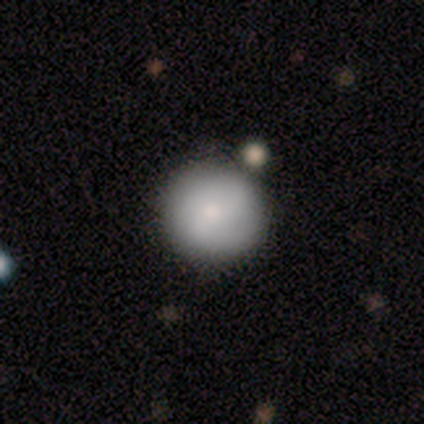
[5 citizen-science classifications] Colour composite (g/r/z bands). It shows a smooth galaxy with no disk features (80%) that is round (100%). Merging: none (60%).